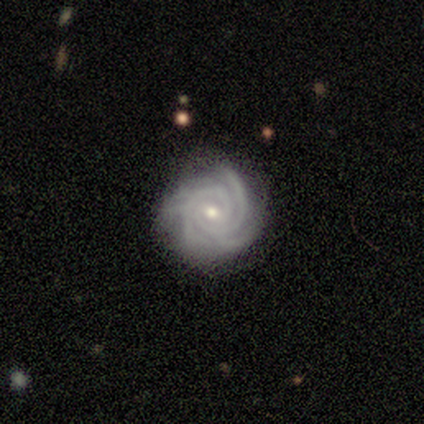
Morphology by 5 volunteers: type=featured or disk (100%); edge-on=no (100%); bar=no (60%); spiral arms=yes (100%); winding=tight (100%); arm count=2 (80%); bulge=small (80%); merging=none (60%).